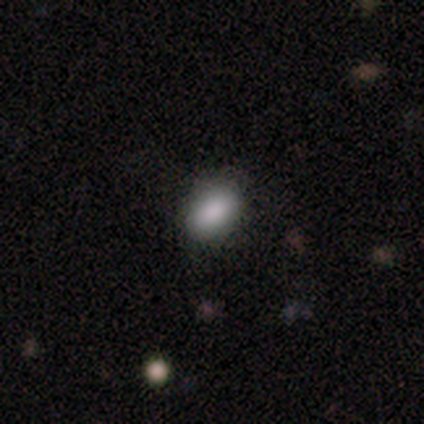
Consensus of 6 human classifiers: This appears to be a smooth galaxy with no disk features (100%) that is in between round and cigar-shaped (83%). Merging: none (83%).